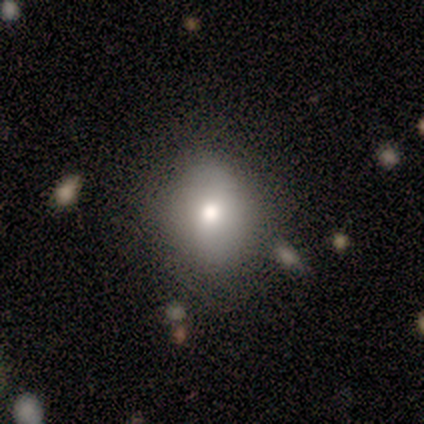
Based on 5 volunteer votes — A smooth galaxy with no disk features (80%) that is round (75%). Merging: none (100%).